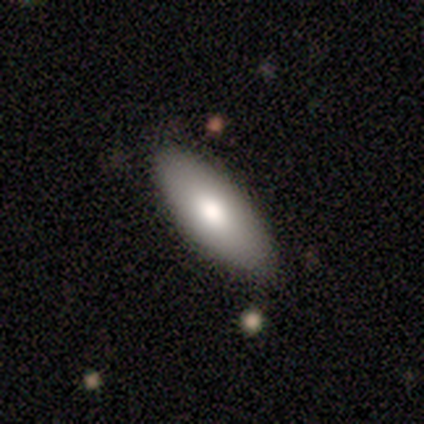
Q: Smooth or featured?
A: smooth (100%)
Q: How rounded?
A: in between (100%)
Q: Merging?
A: none (80%); runner-up: minor disturbance (20%)